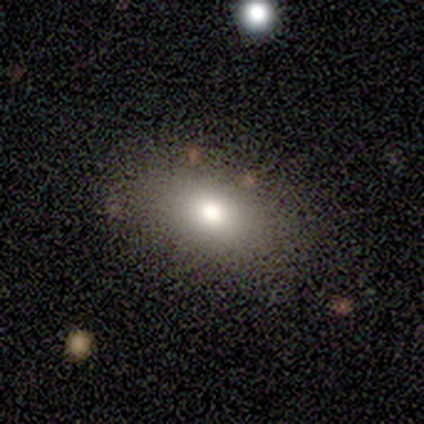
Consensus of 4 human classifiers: Smooth or featured?
  - smooth: 50% *
  - featured or disk: 25%
  - star or artifact: 25%
How rounded?
  - round: 50% * (tied)
  - in between: 50% * (tied)
  - cigar-shaped: 0%
Merging?
  - none: 67% *
  - major disturbance: 33%
  - minor disturbance: 0%
  - merger: 0%